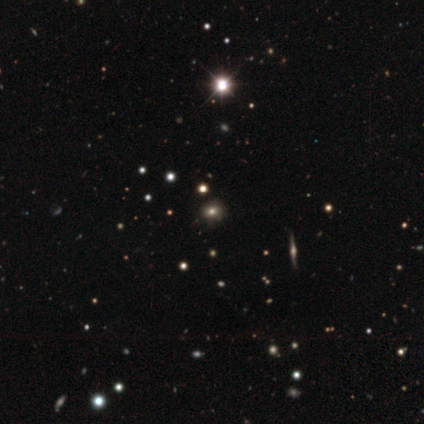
Q: Smooth or featured?
A: smooth (80%); runner-up: featured or disk (20%)
Q: How rounded?
A: round (50%); tied with: in between (50%)
Q: Merging?
A: minor disturbance (60%); runner-up: none (20%)